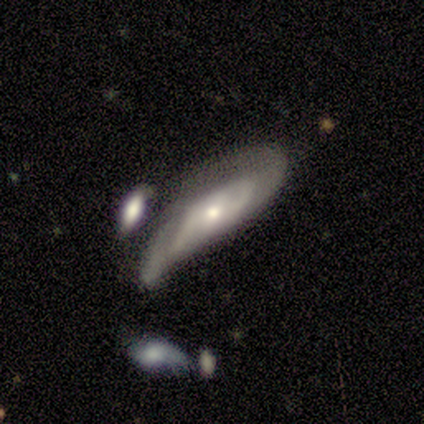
Smooth or featured: featured or disk — 94% (smooth — 6%)
Edge-on disk: no — 93% (yes — 7%)
Bar: no — 64% (weak — 29%)
Spiral arms: yes — 71% (no — 29%)
Spiral winding: medium — 60% (tight — 20%)
Spiral arm count: 2 — 60% (can't tell — 40%)
Bulge size: moderate — 50% (small — 43%)
Merging: none — 31% (tied with minor disturbance — 31%)